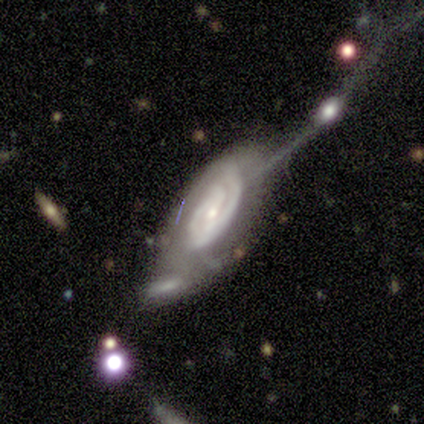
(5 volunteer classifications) Volunteers were most divided on "merging" (2-way tie): major disturbance: 40%, merger: 40%, none: 20%, minor disturbance: 0%. More confident: smooth or featured — featured or disk (100%); spiral arms — yes (100%); bulge size — small (100%); edge-on disk — no (80%); spiral winding — tight (75%); bar — no (50%); spiral arm count — can't tell (50%).